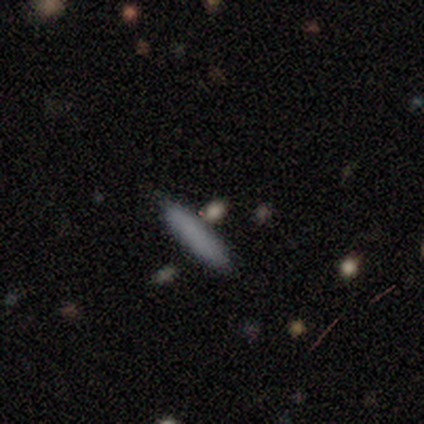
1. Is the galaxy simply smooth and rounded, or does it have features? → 75% smooth, 25% star or artifact, 0% featured or disk.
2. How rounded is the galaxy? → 100% cigar-shaped, 0% round, 0% in between.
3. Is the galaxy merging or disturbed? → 100% none, 0% minor disturbance, 0% major disturbance, 0% merger.